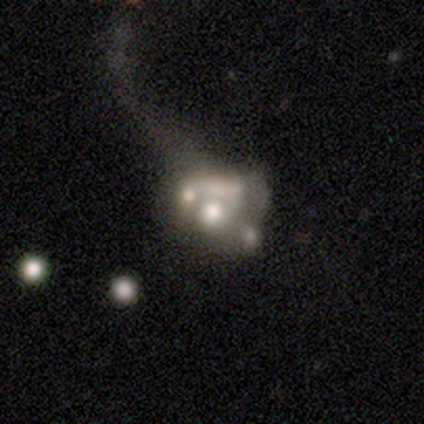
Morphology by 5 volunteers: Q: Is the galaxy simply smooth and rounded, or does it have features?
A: featured or disk — 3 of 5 (60%).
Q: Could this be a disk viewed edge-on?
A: no — 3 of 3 (100%).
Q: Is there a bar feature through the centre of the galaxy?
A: no — 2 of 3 (67%).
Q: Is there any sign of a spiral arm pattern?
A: no — 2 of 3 (67%).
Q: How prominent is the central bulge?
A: large — 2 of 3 (67%).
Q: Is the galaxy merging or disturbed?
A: major disturbance — 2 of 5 (40%, tied with merger).